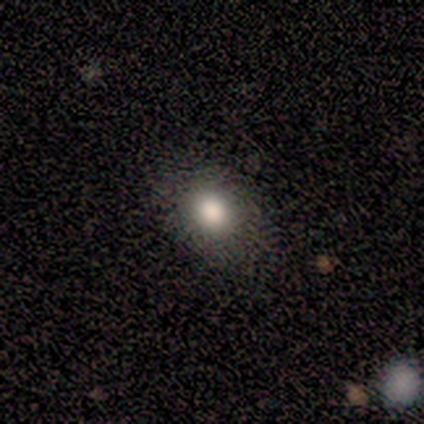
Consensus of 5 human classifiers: Q: Smooth or featured?
A: smooth (100%)
Q: How rounded?
A: in between (60%); runner-up: round (40%)
Q: Merging?
A: none (80%); runner-up: minor disturbance (20%)